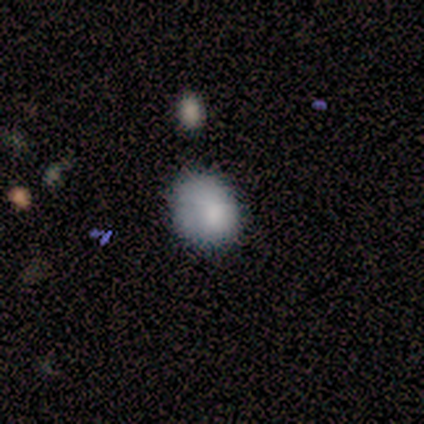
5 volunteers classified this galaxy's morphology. Overall: smooth (100%). How rounded: round (60%; in between 40%). Merging: none (80%).